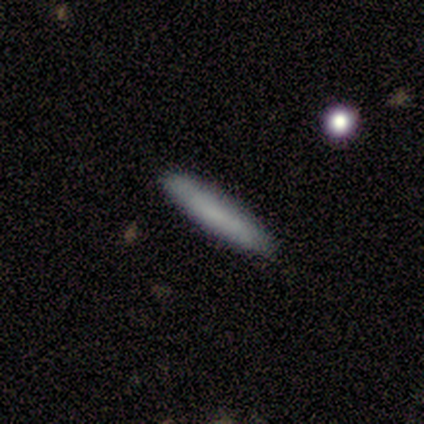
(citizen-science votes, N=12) Smooth or featured: smooth — 75% (featured or disk — 25%)
How rounded: cigar-shaped — 56% (in between — 44%)
Merging: none — 92% (minor disturbance — 8%)